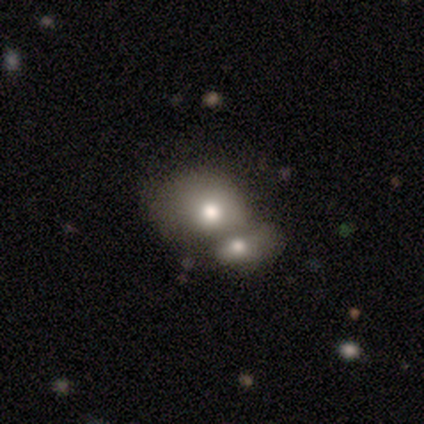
Smooth or featured? 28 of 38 (74%) said smooth. How rounded? 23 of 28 (82%) said in between. Merging? 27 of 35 (77%) said merger.